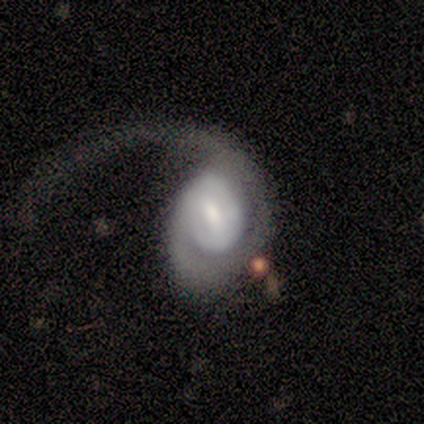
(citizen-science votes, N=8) smooth-or-featured: featured or disk: 100% | smooth: 0% | star or artifact: 0%
  disk-edge-on: no: 88% | yes: 12%
    bar: no: 57% | weak: 29% | strong: 14%
    has-spiral-arms: yes: 100% | no: 0%
      spiral-winding: tight: 43% (tied) | loose: 43% (tied) | medium: 14%
      spiral-arm-count: 1: 100% | 2: 0% | 3: 0% | 4: 0% | more than 4: 0% | can't tell: 0%
    bulge-size: moderate: 43% | small: 29% | dominant: 14% | large: 14% | none: 0%
  merging: major disturbance: 75% | minor disturbance: 12% | merger: 12% | none: 0%